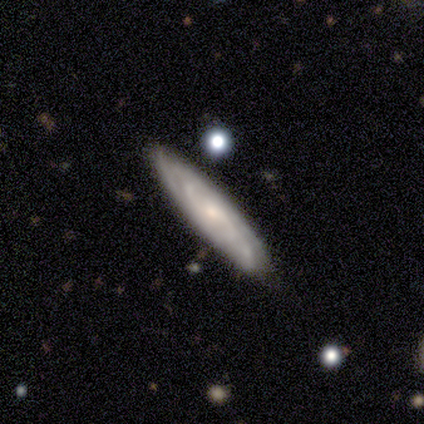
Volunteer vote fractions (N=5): Smooth or featured?
  - featured or disk: 80% *
  - smooth: 20%
  - star or artifact: 0%
Edge-on disk?
  - no: 75% *
  - yes: 25%
Bar?
  - no: 67% *
  - weak: 33%
  - strong: 0%
Spiral arms?
  - yes: 100% *
  - no: 0%
Spiral winding?
  - tight: 100% *
  - medium: 0%
  - loose: 0%
Spiral arm count?
  - 2: 33% * (tied)
  - more than 4: 33% * (tied)
  - can't tell: 33% * (tied)
  - 1: 0%
  - 3: 0%
  - 4: 0%
Bulge size?
  - moderate: 67% *
  - small: 33%
  - dominant: 0%
  - large: 0%
  - none: 0%
Merging?
  - none: 80% *
  - minor disturbance: 20%
  - major disturbance: 0%
  - merger: 0%